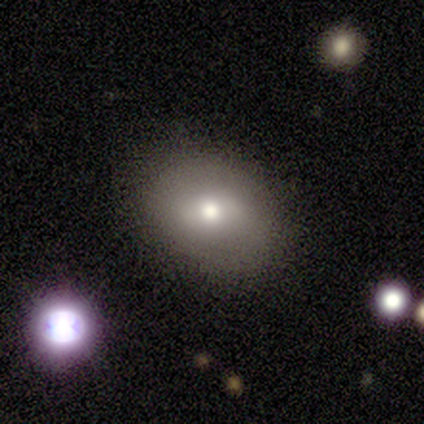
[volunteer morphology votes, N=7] This appears to be a featured or disk galaxy (71%) with a weak bar (60%), no spiral arms (100%) and a moderate central bulge (80%). Merging: none (100%).